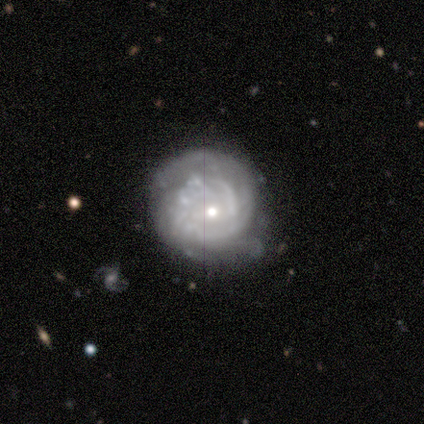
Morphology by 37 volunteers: Smooth or featured? 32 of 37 (86%) said featured or disk. Edge-on disk? 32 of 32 (100%) said no. Bar? 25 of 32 (78%) said no. Spiral arms? 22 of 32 (69%) said yes. Spiral winding? 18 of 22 (82%) said tight. Spiral arm count? 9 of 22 (41%) said 2. Bulge size? 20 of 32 (62%) said small. Merging? 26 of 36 (72%) said none.